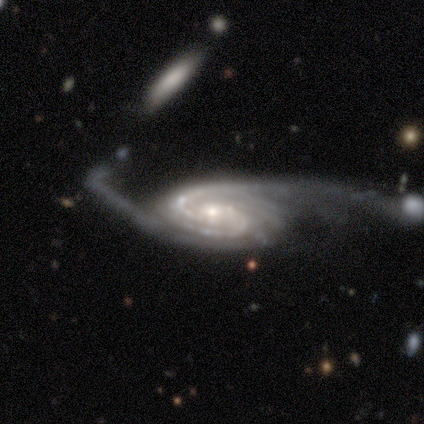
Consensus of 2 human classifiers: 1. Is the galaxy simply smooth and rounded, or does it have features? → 100% featured or disk, 0% smooth, 0% star or artifact.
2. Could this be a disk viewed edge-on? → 100% no, 0% yes.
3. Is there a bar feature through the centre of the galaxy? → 50% weak (tied), 50% no (tied), 0% strong.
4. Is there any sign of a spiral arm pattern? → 100% yes, 0% no.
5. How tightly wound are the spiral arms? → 50% medium (tied), 50% loose (tied), 0% tight.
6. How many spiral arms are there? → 50% 2 (tied), 50% can't tell (tied), 0% 1, 0% 3, 0% 4, 0% more than 4.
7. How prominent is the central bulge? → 100% moderate, 0% dominant, 0% large, 0% small, 0% none.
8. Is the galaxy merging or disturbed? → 100% major disturbance, 0% none, 0% minor disturbance, 0% merger.